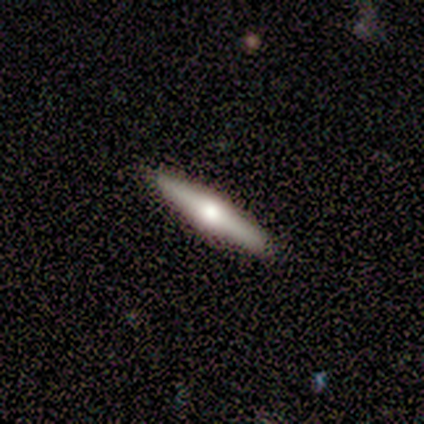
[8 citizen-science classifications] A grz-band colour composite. It shows a featured or disk galaxy (62%) viewed edge-on (100%) with a rounded central bulge (100%). Merging: none (100%).